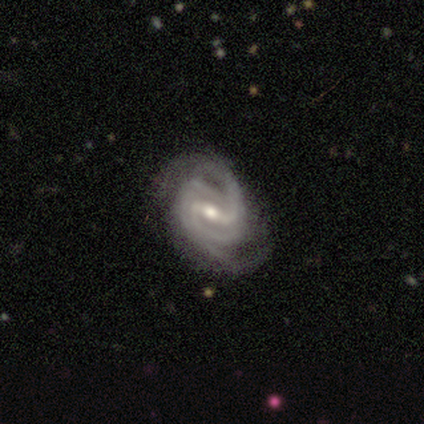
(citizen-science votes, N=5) Volunteers were most divided on "bulge size" (2-way tie): moderate: 50%, small: 50%, dominant: 0%, large: 0%, none: 0%. More confident: smooth or featured — featured or disk (100%); bar — strong (100%); spiral arms — yes (100%); edge-on disk — no (80%); merging — none (80%); spiral winding — tight (75%); spiral arm count — 2 (75%).